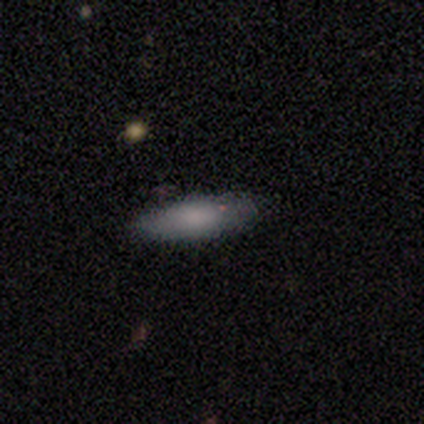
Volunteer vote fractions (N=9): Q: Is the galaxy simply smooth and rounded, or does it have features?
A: smooth — 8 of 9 (89%).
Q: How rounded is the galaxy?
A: in between — 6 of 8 (75%).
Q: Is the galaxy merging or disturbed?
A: none — 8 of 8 (100%).